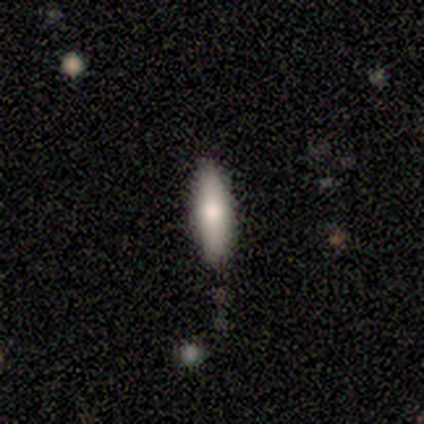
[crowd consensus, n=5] Smooth or featured?
  - smooth: 60% *
  - featured or disk: 40%
  - star or artifact: 0%
How rounded?
  - in between: 67% *
  - cigar-shaped: 33%
  - round: 0%
Merging?
  - none: 100% *
  - minor disturbance: 0%
  - major disturbance: 0%
  - merger: 0%